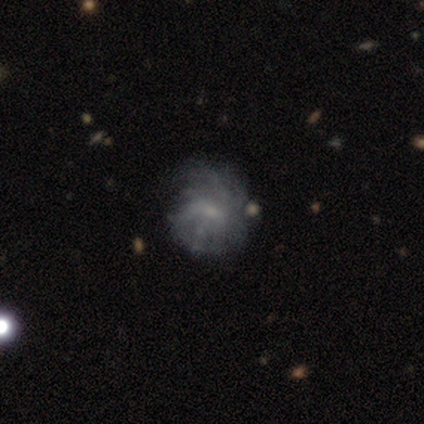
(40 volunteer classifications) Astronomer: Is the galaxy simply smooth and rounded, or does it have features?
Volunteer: featured or disk — 72%.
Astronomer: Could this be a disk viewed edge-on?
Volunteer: no — 97%.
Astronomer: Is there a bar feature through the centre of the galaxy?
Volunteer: no — 50% (runner-up: weak, 39%).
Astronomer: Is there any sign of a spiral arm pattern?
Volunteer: yes — 71%.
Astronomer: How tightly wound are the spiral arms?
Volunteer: tight — 50%.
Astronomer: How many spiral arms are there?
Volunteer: can't tell — 60%.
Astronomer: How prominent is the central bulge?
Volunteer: small — 68%.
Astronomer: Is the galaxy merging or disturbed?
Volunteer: none — 37% (runner-up: minor disturbance, 18%).